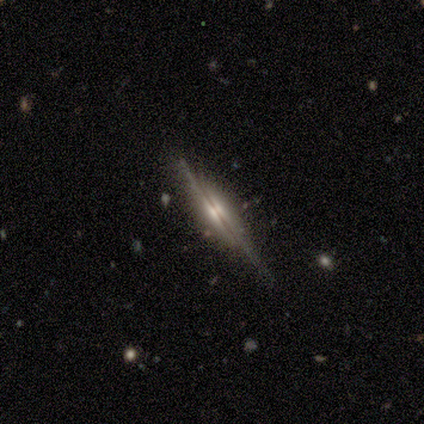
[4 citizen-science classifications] A featured or disk galaxy (100%) viewed edge-on (100%) with a rounded central bulge (100%).

Vote fractions:
- Smooth or featured? featured or disk: 100% / smooth: 0% / star or artifact: 0%
- Edge-on disk? yes: 100% / no: 0%
- Edge-on bulge? rounded: 100% / boxy: 0% / none: 0%
- Merging? none: 100% / minor disturbance: 0% / major disturbance: 0% / merger: 0%